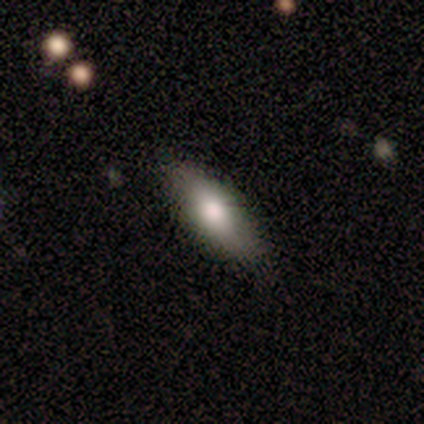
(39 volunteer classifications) Overall: smooth (67%; featured or disk 31%). How rounded: in between (62%; cigar-shaped 35%). Merging: none (82%).